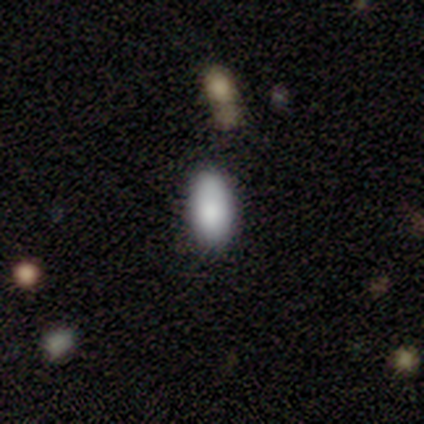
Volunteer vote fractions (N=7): Q: Smooth or featured?
A: smooth (86%); runner-up: featured or disk (14%)
Q: How rounded?
A: in between (100%)
Q: Merging?
A: none (86%); runner-up: merger (14%)